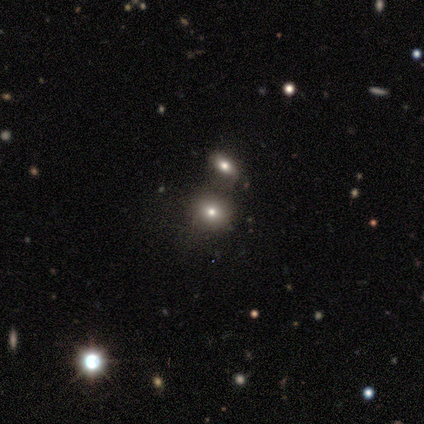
smooth 60%, featured or disk 20%, star or artifact 20%. Down the decision tree: how rounded — round (67%); merging — none (75%).